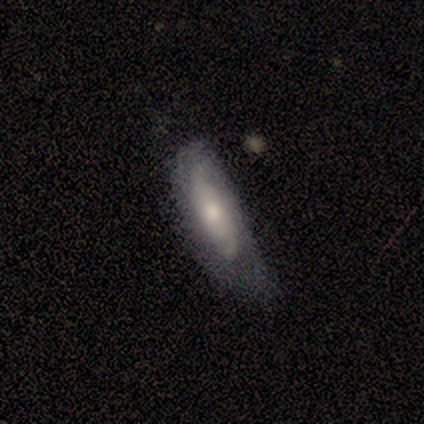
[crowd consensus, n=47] smooth_or_featured: featured or disk (p=0.70) [alt: smooth p=0.23]
disk_edge_on: no (p=0.97) [alt: yes p=0.03]
bar: no (p=0.81) [alt: weak p=0.12]
has_spiral_arms: yes (p=0.94) [alt: no p=0.06]
spiral_winding: tight (p=0.67) [alt: medium p=0.23]
spiral_arm_count: 2 (p=0.47) [tied with: can't tell p=0.47]
bulge_size: moderate (p=0.72) [alt: small p=0.19]
merging: none (p=0.45) [alt: minor disturbance p=0.41]